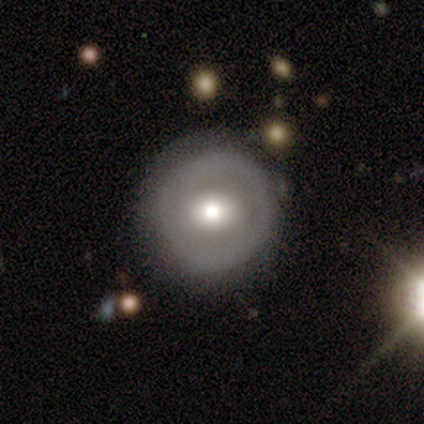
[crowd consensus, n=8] Q: Smooth or featured?
A: smooth (75%); runner-up: featured or disk (25%)
Q: How rounded?
A: round (83%); runner-up: in between (17%)
Q: Merging?
A: none (75%); runner-up: minor disturbance (25%)